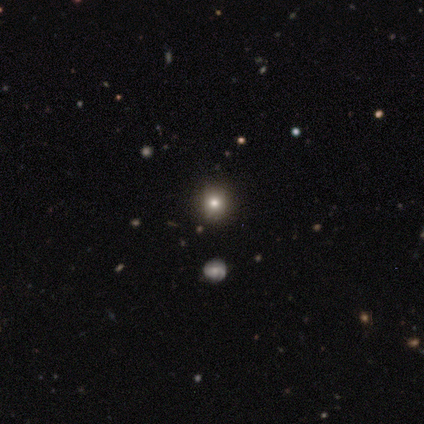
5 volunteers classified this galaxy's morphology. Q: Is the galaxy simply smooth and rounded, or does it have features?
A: smooth — 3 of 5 (60%).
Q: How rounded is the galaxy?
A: round — 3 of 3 (100%).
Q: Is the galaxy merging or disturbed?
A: none — 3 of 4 (75%).